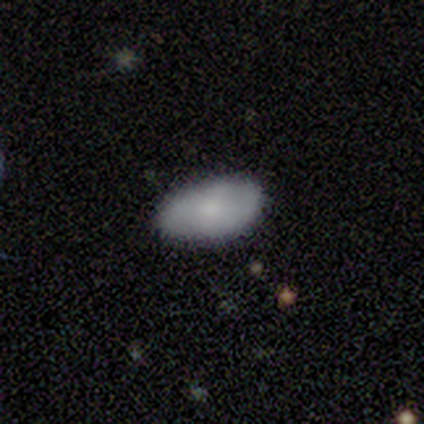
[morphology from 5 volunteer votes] type=smooth (60%); roundness=in between (100%); merging=none (75%).